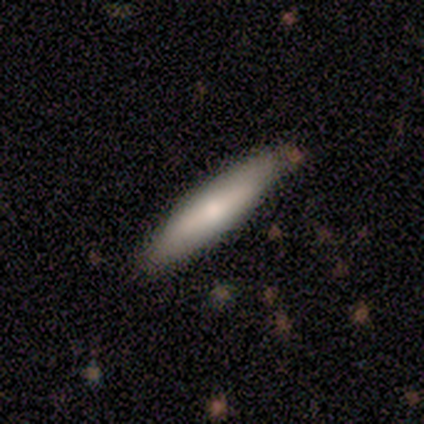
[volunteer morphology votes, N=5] Q: Smooth or featured?
A: smooth (60%); runner-up: featured or disk (40%)
Q: How rounded?
A: cigar-shaped (67%); runner-up: in between (33%)
Q: Merging?
A: none (80%); runner-up: merger (20%)